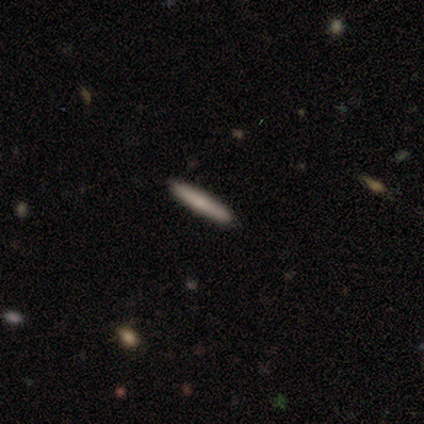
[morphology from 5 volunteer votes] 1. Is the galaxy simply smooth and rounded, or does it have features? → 80% smooth, 20% featured or disk, 0% star or artifact.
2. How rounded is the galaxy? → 100% cigar-shaped, 0% round, 0% in between.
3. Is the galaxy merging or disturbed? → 100% none, 0% minor disturbance, 0% major disturbance, 0% merger.